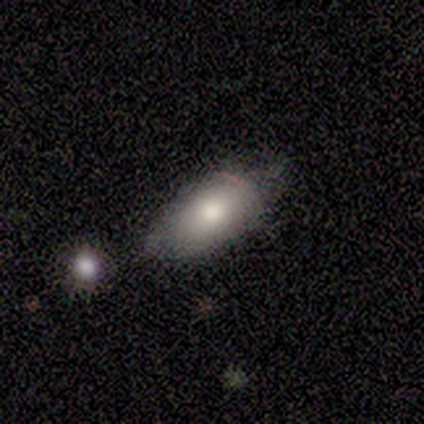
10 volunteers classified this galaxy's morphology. Smooth or featured: smooth — 80% (featured or disk — 20%)
How rounded: in between — 100%
Merging: none — 70% (minor disturbance — 30%)